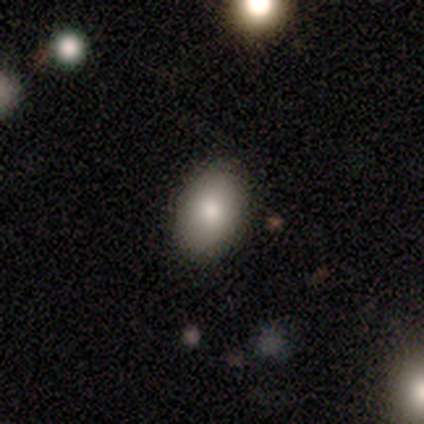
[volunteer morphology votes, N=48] Smooth or featured?
  - smooth: 83% *
  - featured or disk: 10%
  - star or artifact: 6%
How rounded?
  - in between: 88% *
  - round: 12%
  - cigar-shaped: 0%
Merging?
  - none: 93% *
  - minor disturbance: 4%
  - major disturbance: 2%
  - merger: 0%